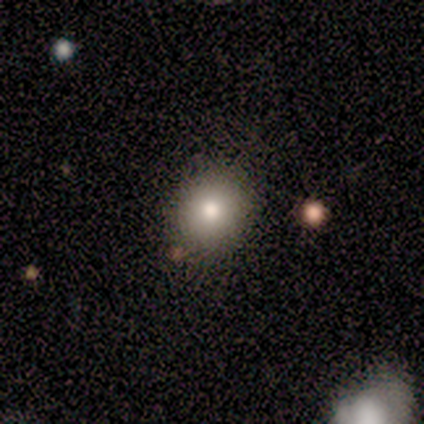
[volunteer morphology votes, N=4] A smooth galaxy with no disk features (75%) that is round (67%).

Vote fractions:
- Smooth or featured? smooth: 75% / featured or disk: 25% / star or artifact: 0%
- How rounded? round: 67% / in between: 33% / cigar-shaped: 0%
- Merging? none: 75% / minor disturbance: 25% / major disturbance: 0% / merger: 0%